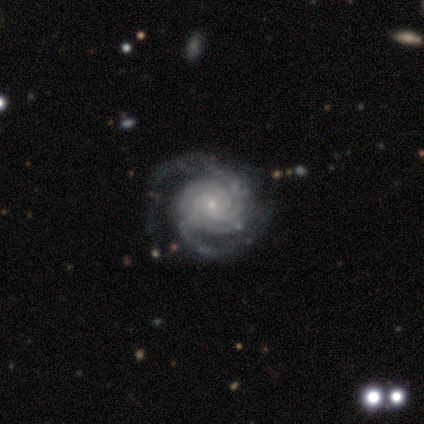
Morphology: type=featured or disk (100%); edge-on=no (100%); bar=no (80%); spiral arms=yes (100%); winding=tight (80%); arm count=2 (40%, tied with 4); bulge=small (80%); merging=none (100%).